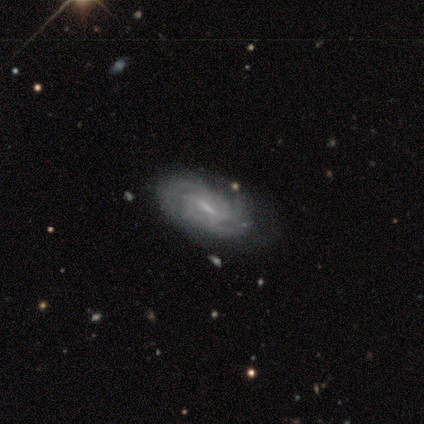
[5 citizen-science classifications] Volunteers were most divided on "bar" (2-way tie): strong: 50%, weak: 50%, no: 0%; "spiral arm count" (4-way tie): 2: 25%, 3: 25%, 4: 25%, can't tell: 25%, 1: 0%, more than 4: 0%. More confident: edge-on disk — no (100%); spiral arms — yes (100%); smooth or featured — featured or disk (80%); spiral winding — tight (75%); merging — none (75%); bulge size — small (50%).